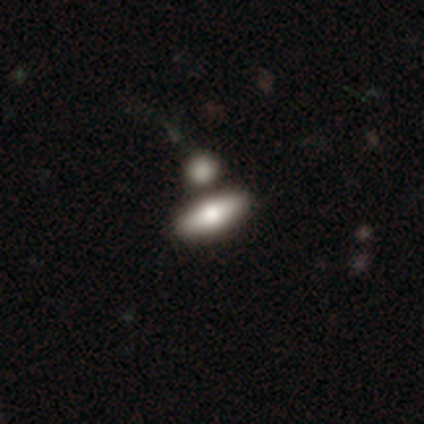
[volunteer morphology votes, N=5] type=smooth (60%); roundness=in between (100%); merging=none (60%).